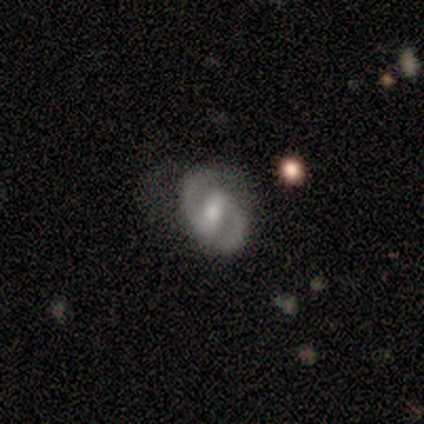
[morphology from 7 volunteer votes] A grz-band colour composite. It shows a featured or disk galaxy (86%) with a strong bar (67%), 2 (100%) medium (60%) spiral arms (83%) and a moderate central bulge (50%, tied with small). Merging: none (57%).